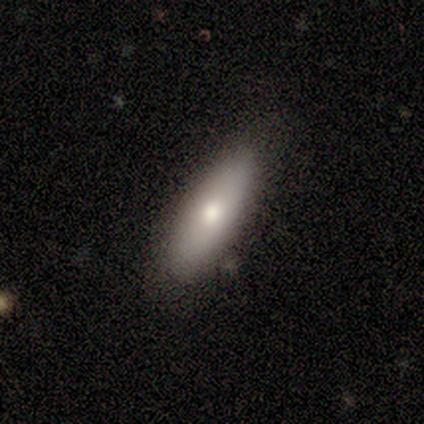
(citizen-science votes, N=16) Smooth or featured? 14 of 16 (88%) said smooth. How rounded? 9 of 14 (64%) said in between. Merging? 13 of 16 (81%) said none.